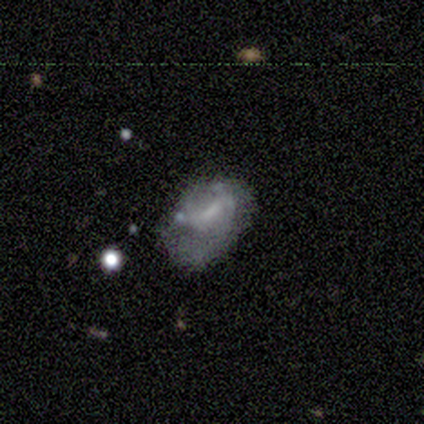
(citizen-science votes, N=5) smooth-or-featured: smooth: 60% | featured or disk: 40% | star or artifact: 0%
  how-rounded: in between: 100% | round: 0% | cigar-shaped: 0%
  merging: minor disturbance: 80% | major disturbance: 20% | none: 0% | merger: 0%